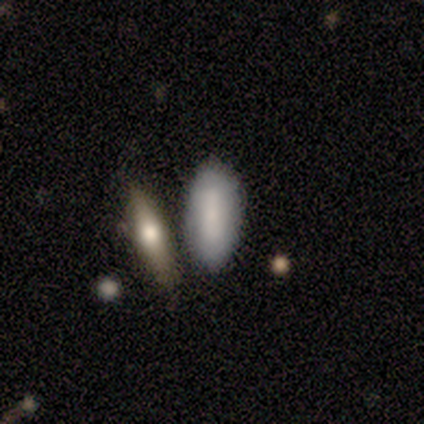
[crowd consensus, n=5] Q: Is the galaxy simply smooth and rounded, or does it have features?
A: smooth — 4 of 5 (80%).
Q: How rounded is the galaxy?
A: in between — 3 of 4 (75%).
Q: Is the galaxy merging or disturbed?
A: merger — 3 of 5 (60%).